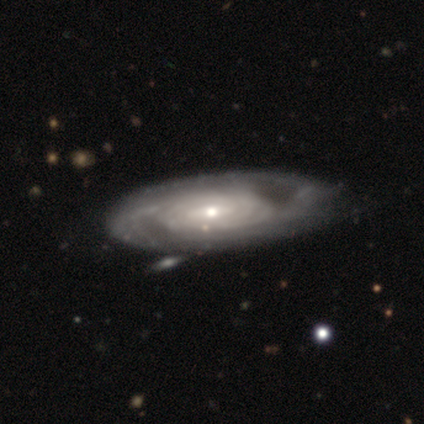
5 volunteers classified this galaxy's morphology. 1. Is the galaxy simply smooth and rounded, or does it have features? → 80% featured or disk, 20% smooth, 0% star or artifact.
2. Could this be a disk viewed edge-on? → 75% no, 25% yes.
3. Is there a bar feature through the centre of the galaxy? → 100% no, 0% strong, 0% weak.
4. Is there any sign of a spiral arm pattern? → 67% yes, 33% no.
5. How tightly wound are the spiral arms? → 100% tight, 0% medium, 0% loose.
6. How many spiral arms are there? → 50% more than 4 (tied), 50% can't tell (tied), 0% 1, 0% 2, 0% 3, 0% 4.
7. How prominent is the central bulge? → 100% small, 0% dominant, 0% large, 0% moderate, 0% none.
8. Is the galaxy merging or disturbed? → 60% none, 40% minor disturbance, 0% major disturbance, 0% merger.